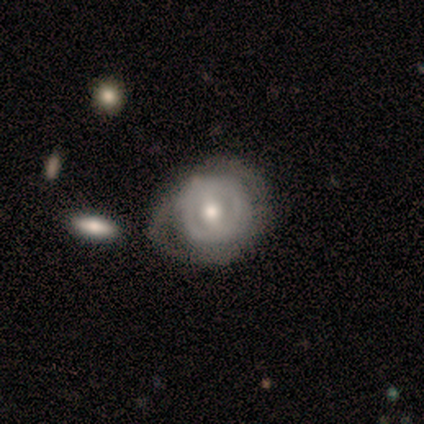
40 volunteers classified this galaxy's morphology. smooth_or_featured: featured or disk (p=0.82) [alt: smooth p=0.12]
disk_edge_on: no (p=0.94) [alt: yes p=0.06]
bar: weak (p=0.55) [alt: no p=0.32]
has_spiral_arms: no (p=0.55) [alt: yes p=0.45]
bulge_size: moderate (p=0.71) [alt: small p=0.26]
merging: minor disturbance (p=0.58) [alt: major disturbance p=0.21]